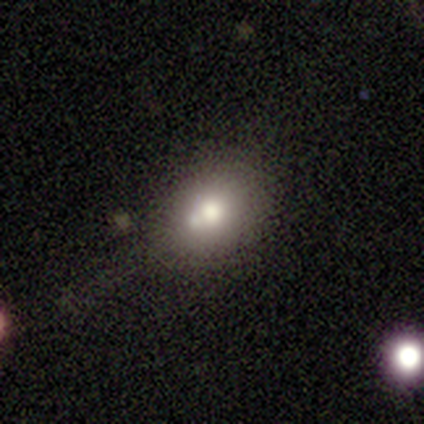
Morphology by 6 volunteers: A smooth galaxy with no disk features (67%) that is in between round and cigar-shaped (75%).

Vote fractions:
- Smooth or featured? smooth: 67% / featured or disk: 17% / star or artifact: 17%
- How rounded? in between: 75% / round: 25% / cigar-shaped: 0%
- Merging? none: 80% / merger: 20% / minor disturbance: 0% / major disturbance: 0%